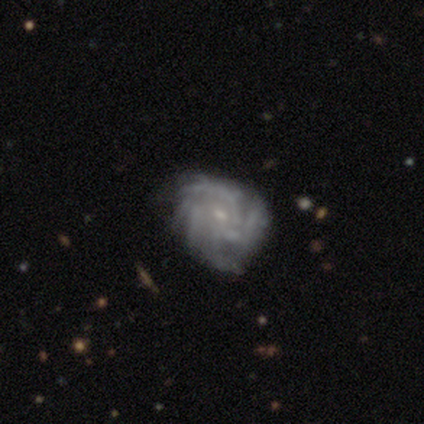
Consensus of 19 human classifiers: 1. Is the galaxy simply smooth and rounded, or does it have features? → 95% featured or disk, 5% smooth, 0% star or artifact.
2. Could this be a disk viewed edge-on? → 100% no, 0% yes.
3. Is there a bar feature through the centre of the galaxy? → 50% no, 39% weak, 11% strong.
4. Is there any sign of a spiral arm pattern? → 94% yes, 6% no.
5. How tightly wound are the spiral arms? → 53% medium, 47% tight, 0% loose.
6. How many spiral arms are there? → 41% can't tell, 35% more than 4, 18% 4, 6% 3, 0% 1, 0% 2.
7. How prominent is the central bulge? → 78% small, 22% moderate, 0% dominant, 0% large, 0% none.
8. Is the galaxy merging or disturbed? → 74% none, 21% minor disturbance, 5% major disturbance, 0% merger.